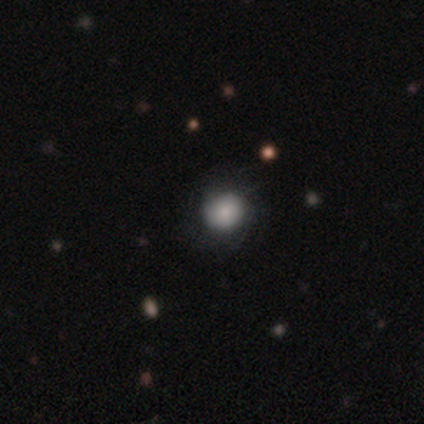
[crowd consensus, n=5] smooth 80%, star or artifact 20%, featured or disk 0%. Down the decision tree: how rounded — round (75%); merging — none (75%).